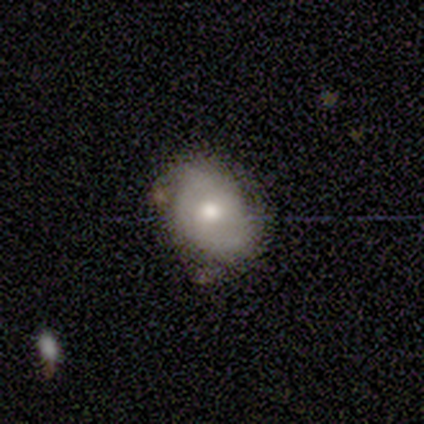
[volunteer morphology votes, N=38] This appears to be a featured or disk galaxy (50%) with no bar (89%), tight (73%) spiral arms (58%) and a moderate central bulge (89%). Merging: none (75%).